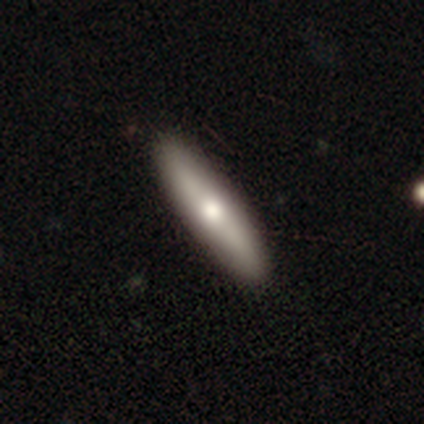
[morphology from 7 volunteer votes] Overall: featured or disk (71%). Edge-on disk: yes (80%). Edge-on bulge: rounded (75%). Merging: none (86%).